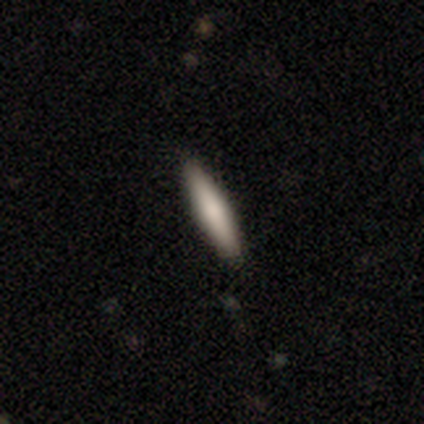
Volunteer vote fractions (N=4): A smooth galaxy with no disk features (100%) that is cigar-shaped (100%).

Vote fractions:
- Smooth or featured? smooth: 100% / featured or disk: 0% / star or artifact: 0%
- How rounded? cigar-shaped: 100% / round: 0% / in between: 0%
- Merging? none: 100% / minor disturbance: 0% / major disturbance: 0% / merger: 0%